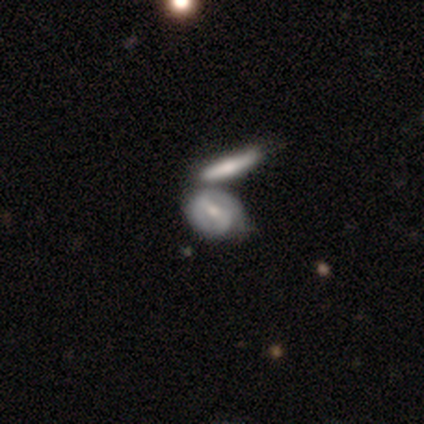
Smooth or featured? 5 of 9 (56%) said featured or disk. Edge-on disk? 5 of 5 (100%) said no. Bar? 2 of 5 (40%, tied with weak) said strong. Spiral arms? 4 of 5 (80%) said no. Bulge size? 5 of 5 (100%) said moderate. Merging? 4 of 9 (44%) said none.